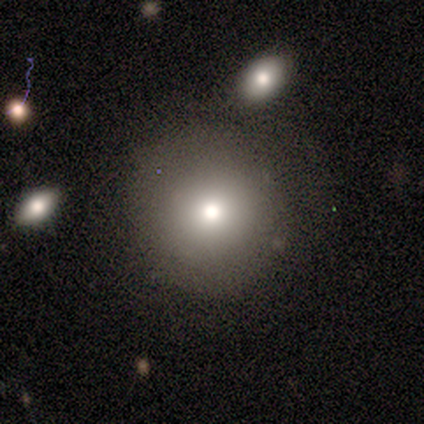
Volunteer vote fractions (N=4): smooth_or_featured: smooth (p=1.00)
how_rounded: round (p=1.00)
merging: none (p=1.00)